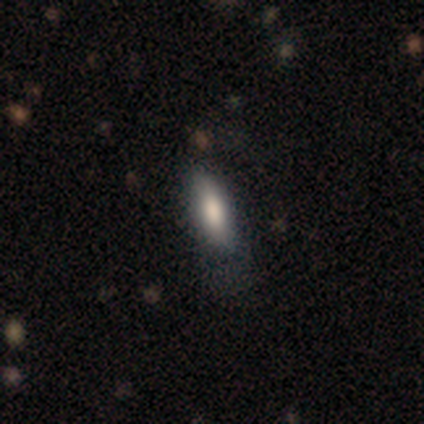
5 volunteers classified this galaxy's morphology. Overall: smooth (100%). How rounded: in between (100%). Merging: none (60%; minor disturbance 40%).